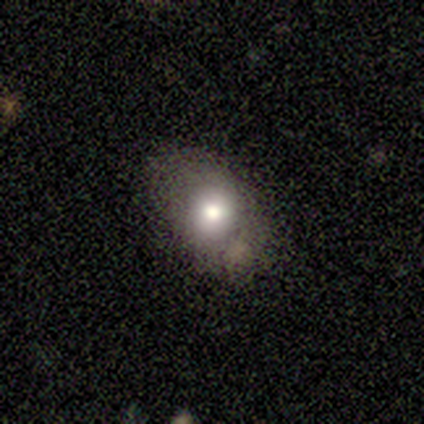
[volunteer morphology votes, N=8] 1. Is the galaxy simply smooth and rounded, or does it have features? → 62% smooth, 38% featured or disk, 0% star or artifact.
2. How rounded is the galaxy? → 80% in between, 20% round, 0% cigar-shaped.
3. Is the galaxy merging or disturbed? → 75% none, 25% minor disturbance, 0% major disturbance, 0% merger.